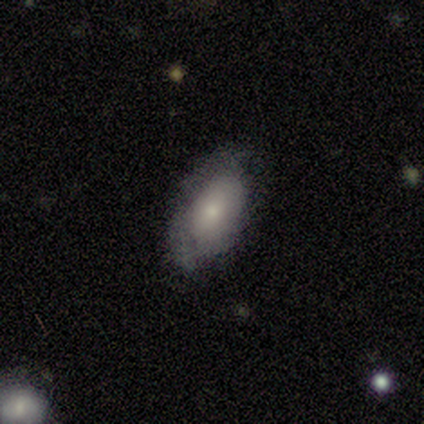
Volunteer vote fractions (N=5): Smooth or featured? smooth (100%)
How rounded? in between (80%)
Merging? none (60%)